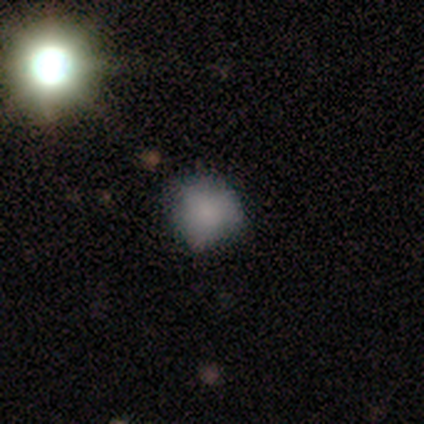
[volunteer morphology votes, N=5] Smooth or featured?
  - smooth: 60% *
  - star or artifact: 40%
  - featured or disk: 0%
How rounded?
  - round: 100% *
  - in between: 0%
  - cigar-shaped: 0%
Merging?
  - none: 67% *
  - minor disturbance: 33%
  - major disturbance: 0%
  - merger: 0%